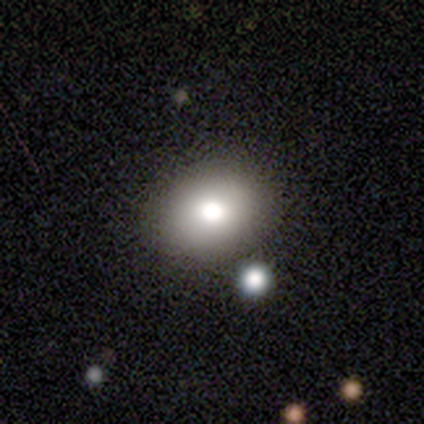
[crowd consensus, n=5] Overall: smooth (80%). How rounded: in between (100%). Merging: none (100%).